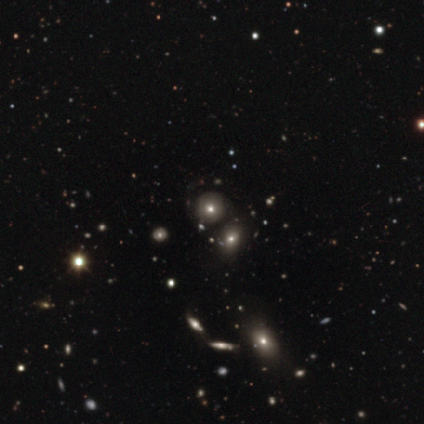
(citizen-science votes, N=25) A smooth galaxy with no disk features (52%) that is round (92%).

Vote fractions:
- Smooth or featured? smooth: 52% / star or artifact: 28% / featured or disk: 20%
- How rounded? round: 92% / in between: 8% / cigar-shaped: 0%
- Merging? none: 61% / minor disturbance: 22% / merger: 17% / major disturbance: 0%